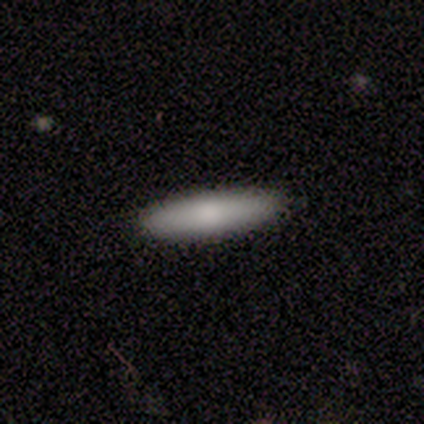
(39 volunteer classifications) A smooth galaxy with no disk features (82%) that is cigar-shaped (88%). Merging: none (92%).